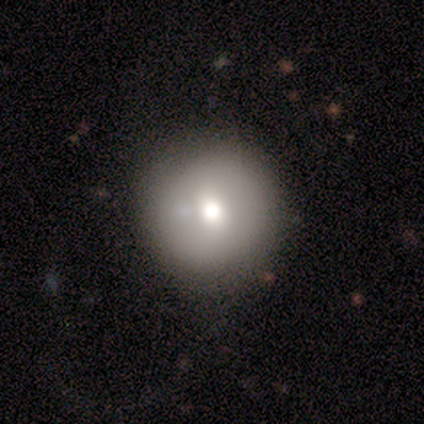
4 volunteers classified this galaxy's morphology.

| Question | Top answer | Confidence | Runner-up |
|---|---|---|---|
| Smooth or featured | smooth | 75% | featured or disk (25%) |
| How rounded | round | 100% | — |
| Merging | none | 100% | — |